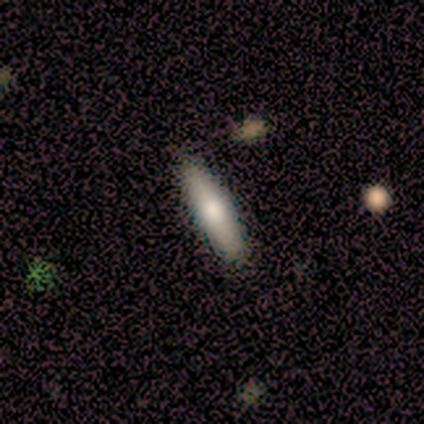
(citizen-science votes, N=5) This is clearly a smooth galaxy (80%). How rounded: likely cigar-shaped (75%). Merging: clearly none (100%).